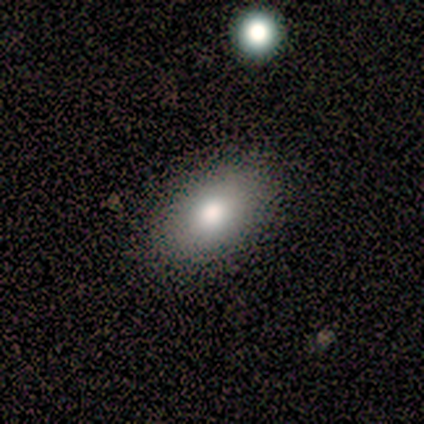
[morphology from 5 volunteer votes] Smooth or featured? smooth (40%, tied with featured or disk)
How rounded? in between (100%)
Merging? none (100%)